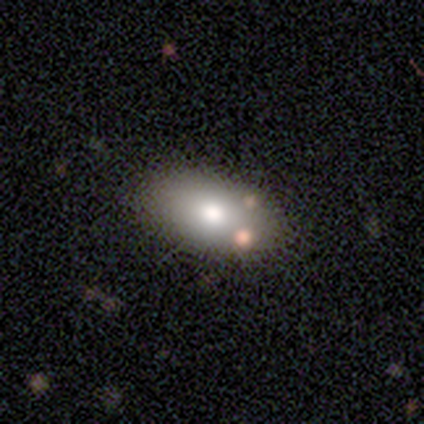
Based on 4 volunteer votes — Smooth or featured?
  - smooth: 50% *
  - featured or disk: 25%
  - star or artifact: 25%
How rounded?
  - in between: 100% *
  - round: 0%
  - cigar-shaped: 0%
Merging?
  - none: 100% *
  - minor disturbance: 0%
  - major disturbance: 0%
  - merger: 0%